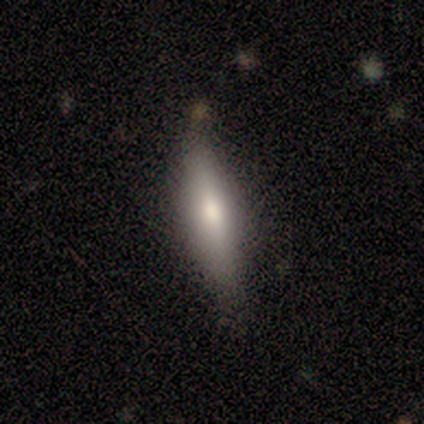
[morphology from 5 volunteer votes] A featured or disk galaxy (60%) viewed edge-on (67%) with a boxy central bulge (50%, tied with rounded). Merging: minor disturbance (80%).